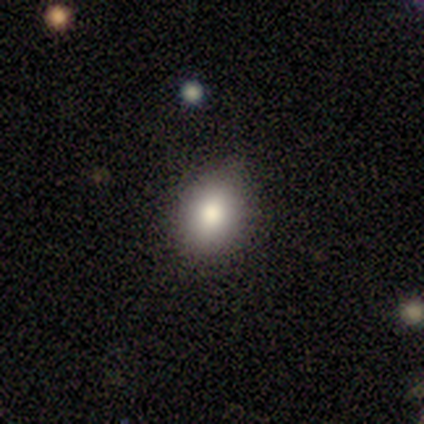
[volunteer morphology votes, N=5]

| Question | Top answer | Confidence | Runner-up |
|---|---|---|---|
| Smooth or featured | smooth | 80% | star or artifact (20%) |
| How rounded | round | 75% | in between (25%) |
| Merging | none | 75% | minor disturbance (25%) |